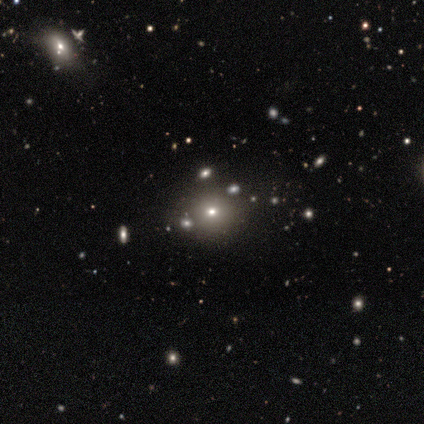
Smooth or featured?
  - smooth: 50% *
  - featured or disk: 25%
  - star or artifact: 25%
How rounded?
  - round: 50% * (tied)
  - in between: 50% * (tied)
  - cigar-shaped: 0%
Merging?
  - none: 33% * (tied)
  - minor disturbance: 33% * (tied)
  - merger: 33% * (tied)
  - major disturbance: 0%